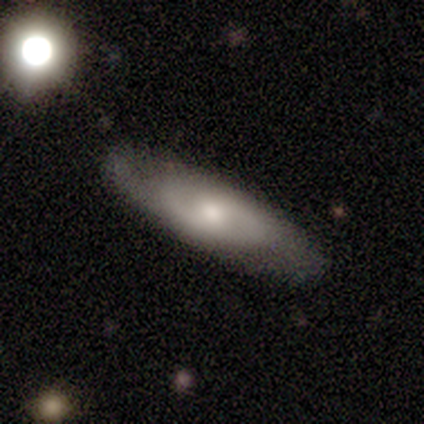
A smooth galaxy with no disk features (50%, tied with featured or disk) that is in between round and cigar-shaped (100%). Merging: none (50%, tied with minor disturbance).